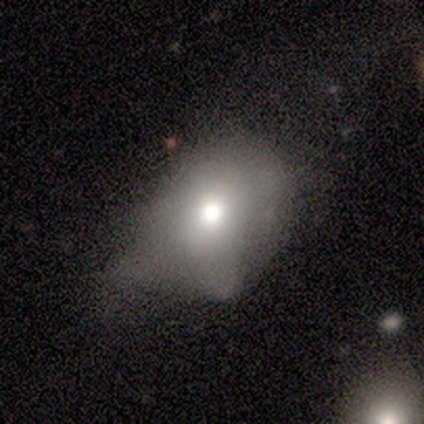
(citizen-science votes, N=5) Volunteers were most divided on "how rounded": in between: 67%, cigar-shaped: 33%, round: 0%. More confident: merging — major disturbance (75%); smooth or featured — smooth (60%).